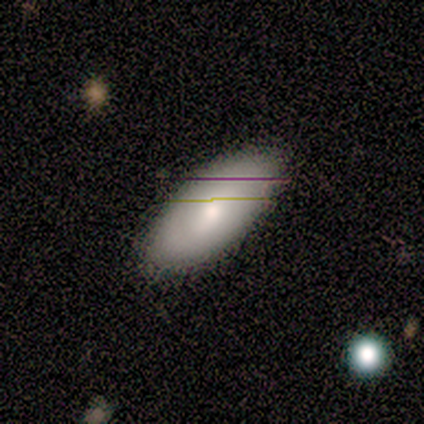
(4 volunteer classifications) Smooth or featured? 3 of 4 (75%) said featured or disk. Edge-on disk? 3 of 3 (100%) said no. Bar? 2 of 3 (67%) said no. Spiral arms? 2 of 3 (67%) said no. Bulge size? 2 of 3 (67%) said small. Merging? 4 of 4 (100%) said none.